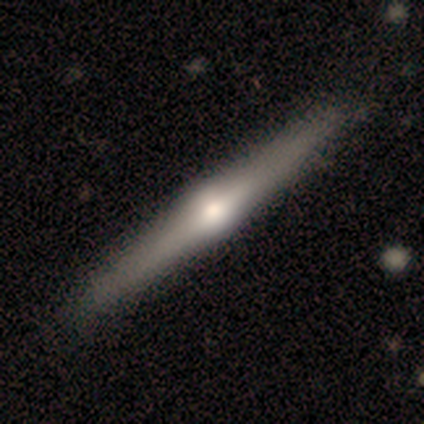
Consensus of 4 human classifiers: A featured or disk galaxy (100%) viewed edge-on (100%) with a rounded central bulge (100%).

Vote fractions:
- Smooth or featured? featured or disk: 100% / smooth: 0% / star or artifact: 0%
- Edge-on disk? yes: 100% / no: 0%
- Edge-on bulge? rounded: 100% / boxy: 0% / none: 0%
- Merging? none: 100% / minor disturbance: 0% / major disturbance: 0% / merger: 0%